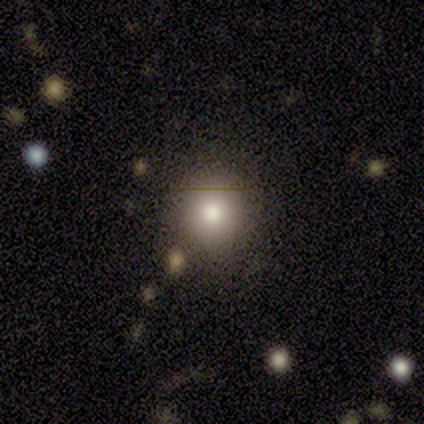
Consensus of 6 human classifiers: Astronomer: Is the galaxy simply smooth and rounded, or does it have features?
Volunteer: smooth — 67%.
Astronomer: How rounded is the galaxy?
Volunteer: round — 100%.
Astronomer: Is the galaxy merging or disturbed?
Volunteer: none — 40%, tied with major disturbance at 40%.